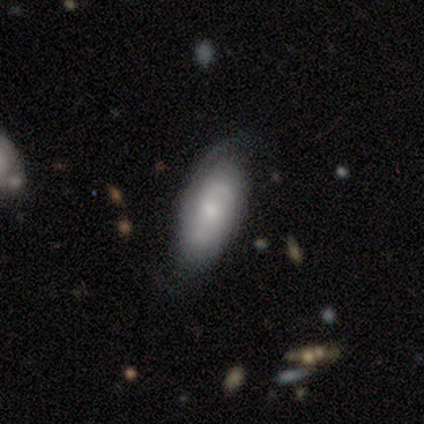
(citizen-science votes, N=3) A featured or disk galaxy (100%) with a weak bar (67%), 2 (33%, tied with 4 and can't tell) tight (100%) spiral arms (100%) and a moderate central bulge (33%, tied with small and none). Merging: minor disturbance (67%).